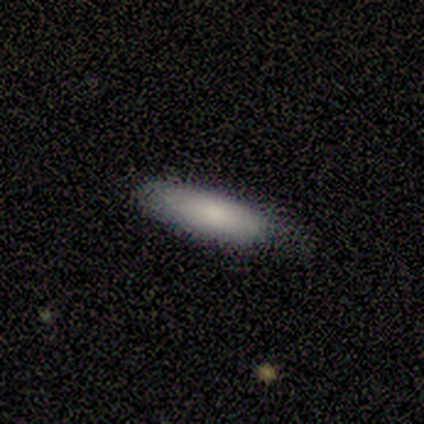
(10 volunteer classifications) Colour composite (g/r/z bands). It shows a smooth galaxy with no disk features (90%) that is cigar-shaped (56%). Merging: none (90%).